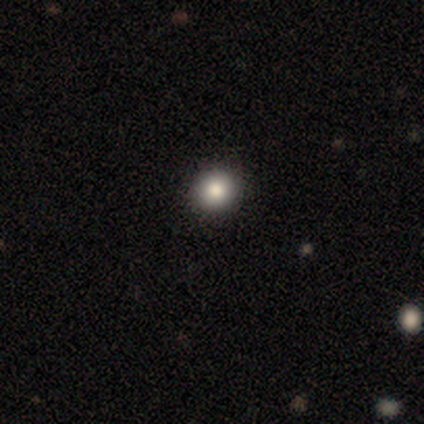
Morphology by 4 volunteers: Q: Smooth or featured?
A: smooth (75%); runner-up: featured or disk (25%)
Q: How rounded?
A: round (100%)
Q: Merging?
A: none (100%)